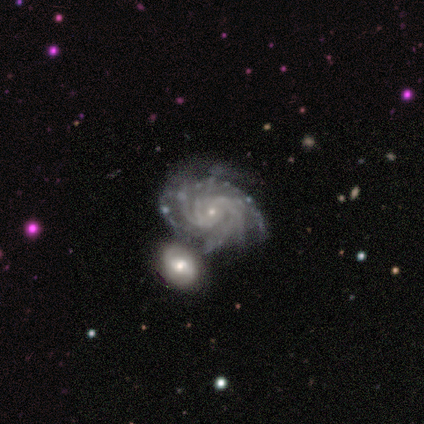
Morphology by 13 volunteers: Smooth or featured? 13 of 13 (100%) said featured or disk. Edge-on disk? 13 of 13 (100%) said no. Bar? 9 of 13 (69%) said no. Spiral arms? 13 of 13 (100%) said yes. Spiral winding? 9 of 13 (69%) said tight. Spiral arm count? 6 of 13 (46%) said more than 4. Bulge size? 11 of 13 (85%) said small. Merging? 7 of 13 (54%) said merger.